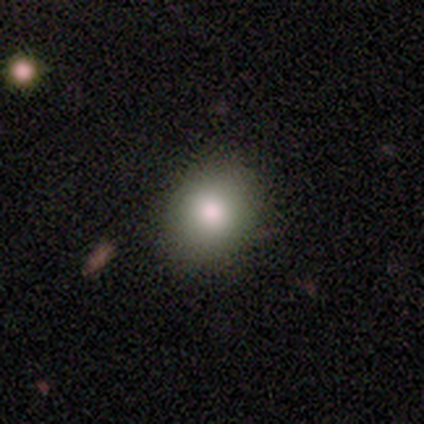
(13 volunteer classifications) Smooth or featured? 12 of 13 (92%) said smooth. How rounded? 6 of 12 (50%, tied with in between) said round. Merging? 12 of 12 (100%) said none.